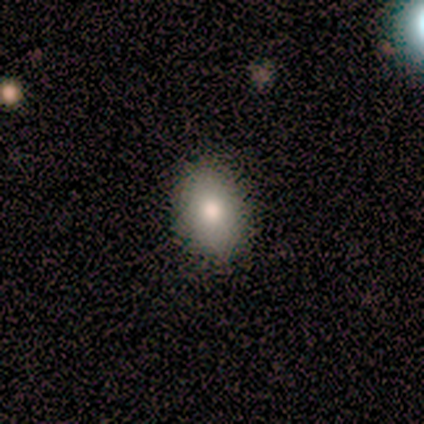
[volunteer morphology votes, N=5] Overall: smooth (100%). How rounded: in between (80%). Merging: minor disturbance (60%; none 20%).